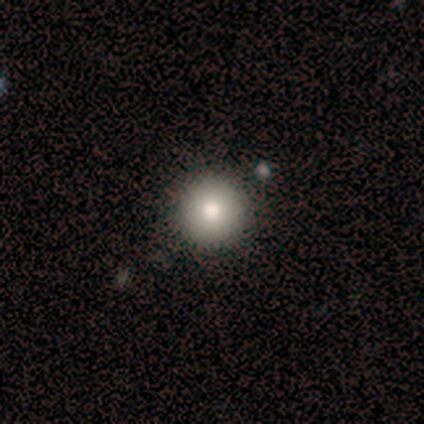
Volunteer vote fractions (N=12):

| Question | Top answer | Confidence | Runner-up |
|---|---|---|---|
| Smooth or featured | smooth | 92% | star or artifact (8%) |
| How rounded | round | 91% | in between (9%) |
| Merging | none | 91% | minor disturbance (9%) |